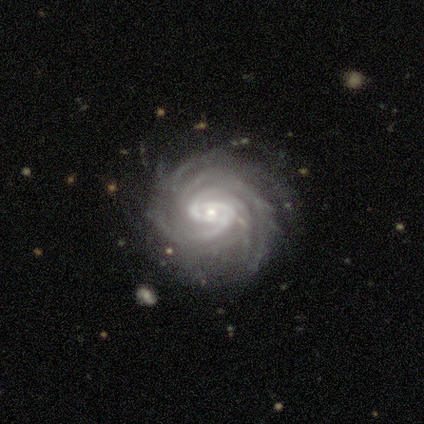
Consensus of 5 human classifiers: A featured or disk galaxy (100%) with no bar (60%), 4 (50%) tight (100%) spiral arms (80%) and a small central bulge (80%). Merging: none (80%).